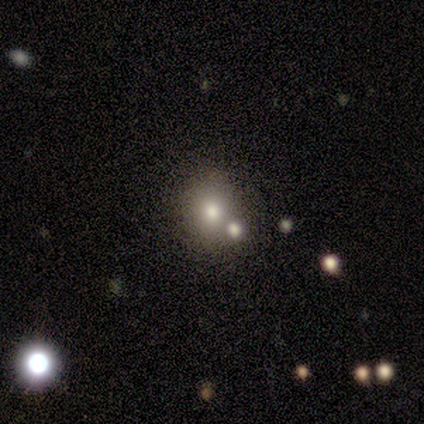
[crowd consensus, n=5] Smooth or featured: smooth — 60% (star or artifact — 40%)
How rounded: in between — 67% (round — 33%)
Merging: none — 67% (minor disturbance — 33%)